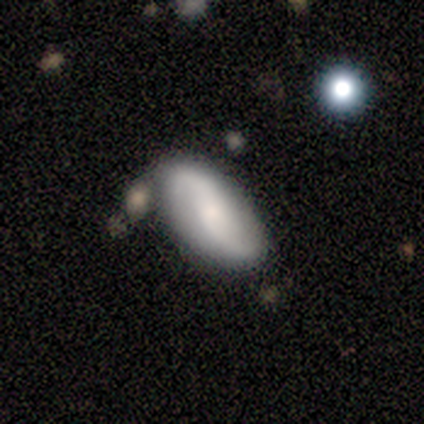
Smooth or featured?
  - smooth: 40% * (tied)
  - featured or disk: 40% * (tied)
  - star or artifact: 20%
How rounded?
  - in between: 100% *
  - round: 0%
  - cigar-shaped: 0%
Merging?
  - none: 50% *
  - minor disturbance: 25%
  - merger: 25%
  - major disturbance: 0%